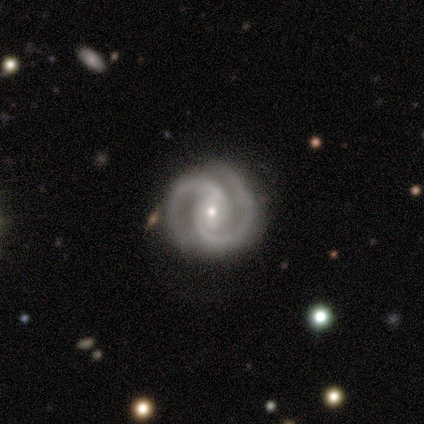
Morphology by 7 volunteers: This appears to be a featured or disk galaxy (100%) with a weak bar (57%), 2 (86%) medium (71%) spiral arms (100%) and a small central bulge (86%). Merging: none (86%).